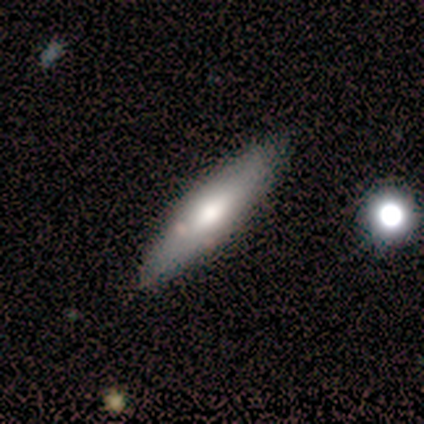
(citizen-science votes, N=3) Smooth or featured? 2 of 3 (67%) said featured or disk. Edge-on disk? 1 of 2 (50%, tied with no) said yes. Edge-on bulge? 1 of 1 (100%) said rounded. Merging? 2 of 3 (67%) said none.